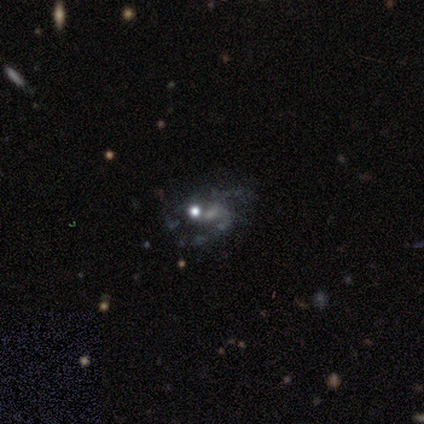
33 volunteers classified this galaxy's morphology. featured or disk 64%, star or artifact 21%, smooth 15%. Down the decision tree: edge-on disk — no (95%); bar — no (70%); spiral arms — yes (55%); spiral arm count — 2 (55%); spiral winding — loose (45%); bulge size — moderate (40%); merging — none (42%).